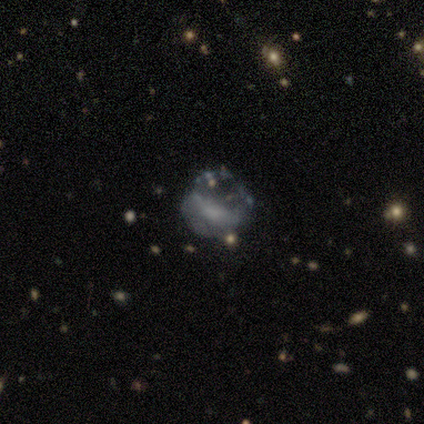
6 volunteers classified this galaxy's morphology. Q: Smooth or featured?
A: smooth (33%); tied with: featured or disk (33%); star or artifact (33%)
Q: How rounded?
A: in between (50%); tied with: cigar-shaped (50%)
Q: Merging?
A: major disturbance (50%); runner-up: none (25%)